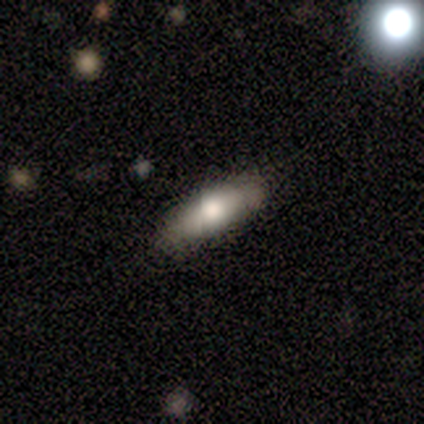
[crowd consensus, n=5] Smooth or featured?
  - smooth: 100% *
  - featured or disk: 0%
  - star or artifact: 0%
How rounded?
  - cigar-shaped: 80% *
  - in between: 20%
  - round: 0%
Merging?
  - none: 100% *
  - minor disturbance: 0%
  - major disturbance: 0%
  - merger: 0%